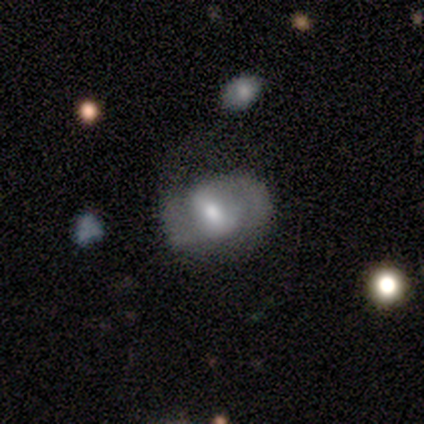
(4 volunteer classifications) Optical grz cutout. It shows a featured or disk galaxy (50%) with a weak bar (50%, tied with no), 2 (100%) medium (50%, tied with loose) spiral arms (100%) and a moderate central bulge (100%). Merging: none (67%).